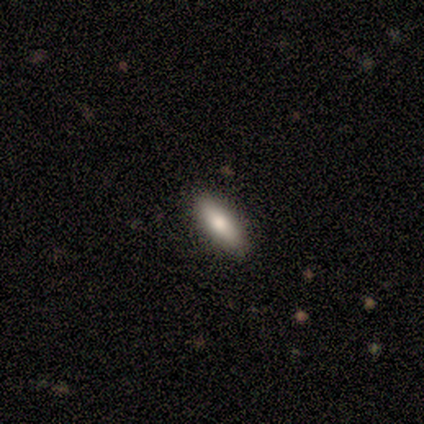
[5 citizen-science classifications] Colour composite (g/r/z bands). It shows a smooth galaxy with no disk features (100%) that is in between round and cigar-shaped (60%). Merging: none (80%).